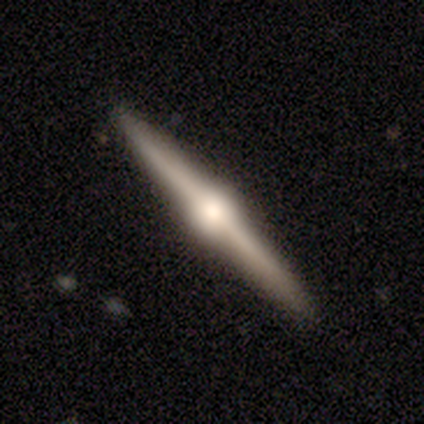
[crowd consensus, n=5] This is clearly a featured or disk galaxy (80%). It is clearly viewed edge-on (100%). Edge-on bulge: clearly rounded (100%). Merging: clearly none (100%).